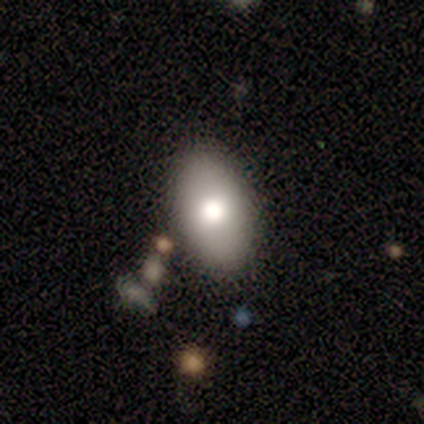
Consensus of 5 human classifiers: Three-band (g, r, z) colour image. It shows a smooth galaxy with no disk features (60%) that is in between round and cigar-shaped (100%). Merging: none (100%).